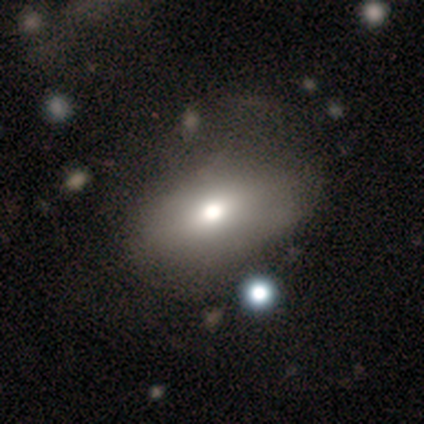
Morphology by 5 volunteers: Volunteers were most divided on "smooth or featured": featured or disk: 60%, smooth: 40%, star or artifact: 0%. More confident: edge-on disk — no (100%); bar — no (100%); spiral arms — no (100%); merging — none (100%); bulge size — moderate (67%).